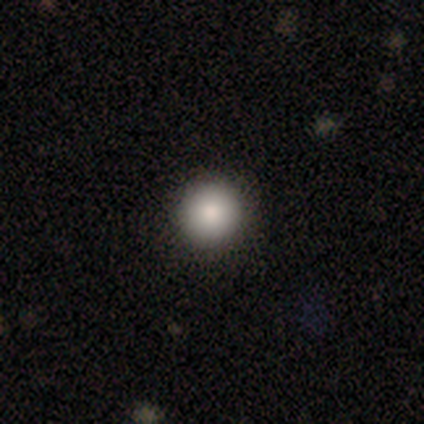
Smooth or featured? 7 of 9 (78%) said smooth. How rounded? 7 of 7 (100%) said round. Merging? 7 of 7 (100%) said none.